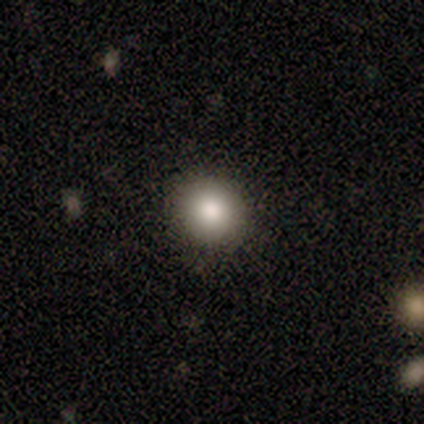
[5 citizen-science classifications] Overall: smooth (100%). How rounded: round (100%). Merging: none (100%).